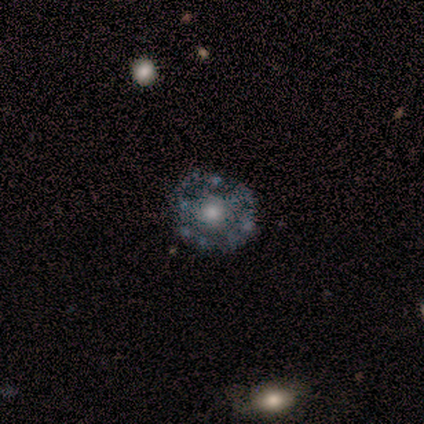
A featured or disk galaxy (75%) with no bar (100%), no spiral arms (100%) and a moderate central bulge (67%).

Vote fractions:
- Smooth or featured? featured or disk: 75% / smooth: 25% / star or artifact: 0%
- Edge-on disk? no: 100% / yes: 0%
- Bar? no: 100% / strong: 0% / weak: 0%
- Spiral arms? no: 100% / yes: 0%
- Bulge size? moderate: 67% / large: 33% / dominant: 0% / small: 0% / none: 0%
- Merging? none: 100% / minor disturbance: 0% / major disturbance: 0% / merger: 0%